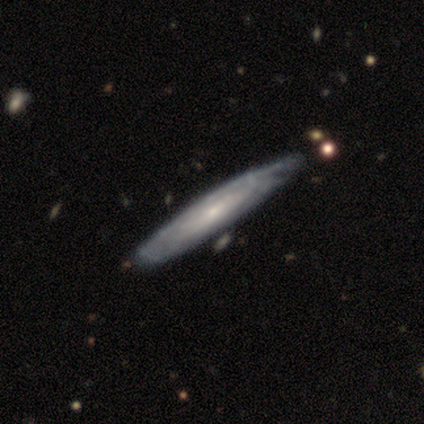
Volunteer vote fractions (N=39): Morphology: type=featured or disk (82%); edge-on=yes (50%, tied with no); edge-on bulge=none (50%); merging=none (37%).